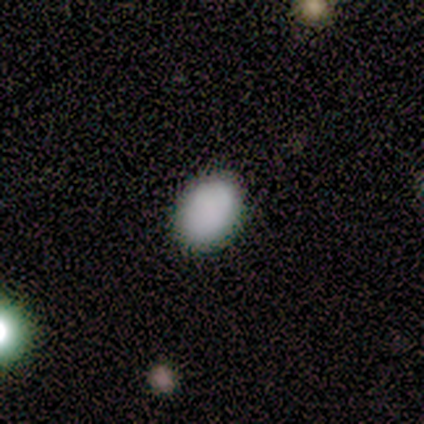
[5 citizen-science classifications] Smooth or featured? smooth (100%)
How rounded? in between (100%)
Merging? none (80%)